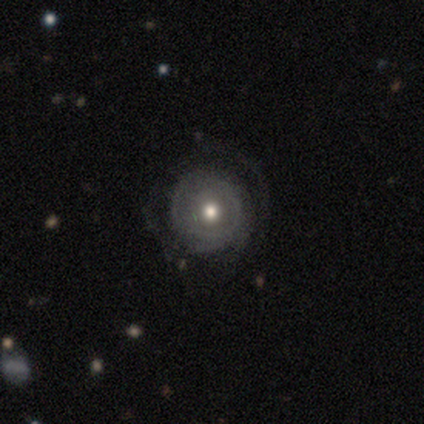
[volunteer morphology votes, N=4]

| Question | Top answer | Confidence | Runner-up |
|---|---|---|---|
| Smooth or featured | smooth | 50% | tied: featured or disk (50%) |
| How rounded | round | 100% | — |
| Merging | none | 100% | — |